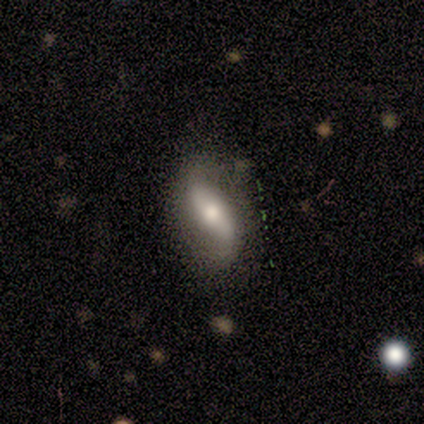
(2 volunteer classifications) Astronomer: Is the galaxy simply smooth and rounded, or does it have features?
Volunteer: smooth — 50%, tied with featured or disk at 50%.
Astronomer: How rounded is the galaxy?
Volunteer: in between — 100%.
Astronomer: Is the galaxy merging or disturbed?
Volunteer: none — 100%.